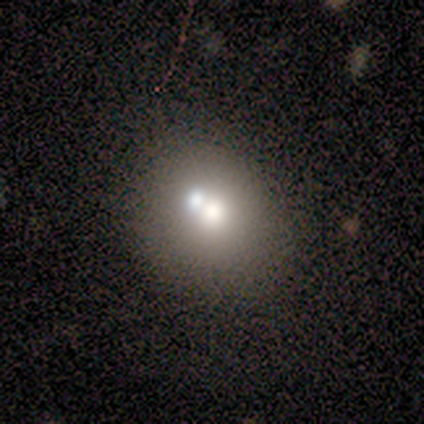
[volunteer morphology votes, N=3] A smooth galaxy with no disk features (100%) that is round (100%). Merging: none (67%).